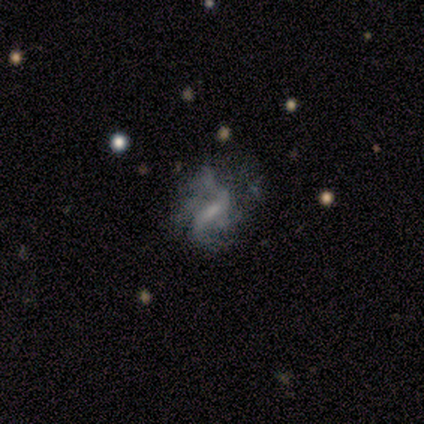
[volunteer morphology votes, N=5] This is clearly a featured or disk galaxy (80%). It is clearly not viewed edge-on (100%). Bar: possibly strong (50%). Spiral arm pattern: possibly yes (50%, tied with no). Spiral arm count: clearly 4 (100%). Spiral winding: possibly tight (50%, tied with medium). Central bulge: possibly moderate (50%). Merging: marginally none (40%, tied with minor disturbance).